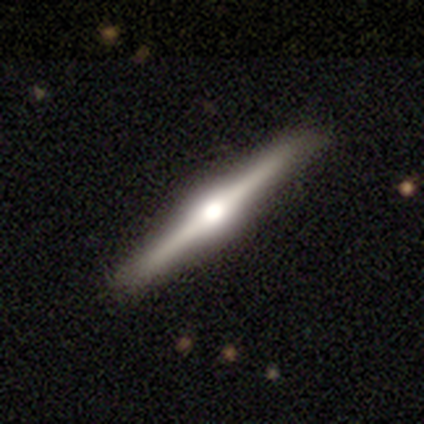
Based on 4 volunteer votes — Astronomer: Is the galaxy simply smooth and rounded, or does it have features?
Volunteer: featured or disk — 75%.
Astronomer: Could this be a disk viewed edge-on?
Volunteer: yes — 100%.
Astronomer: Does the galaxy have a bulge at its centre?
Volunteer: rounded — 100%.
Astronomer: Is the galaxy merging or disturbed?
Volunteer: none — 100%.